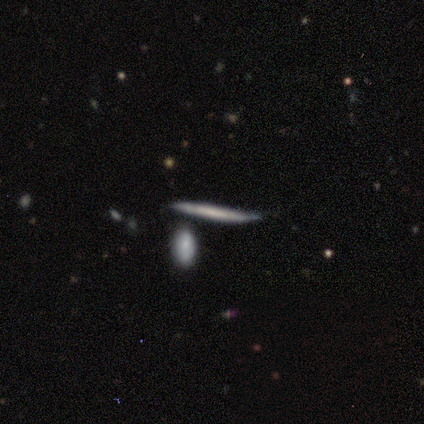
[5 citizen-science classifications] smooth_or_featured: featured or disk (p=0.80) [alt: smooth p=0.20]
disk_edge_on: yes (p=1.00)
edge_on_bulge: none (p=0.75) [alt: rounded p=0.25]
merging: none (p=1.00)